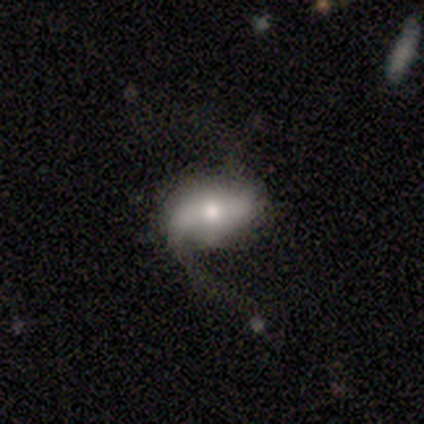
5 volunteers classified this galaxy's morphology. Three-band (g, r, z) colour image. It shows a featured or disk galaxy (60%) with a strong bar (67%), 1 (33%, tied with 2 and can't tell) loose (100%) spiral arms (100%) and a moderate central bulge (67%). Merging: none (40%).